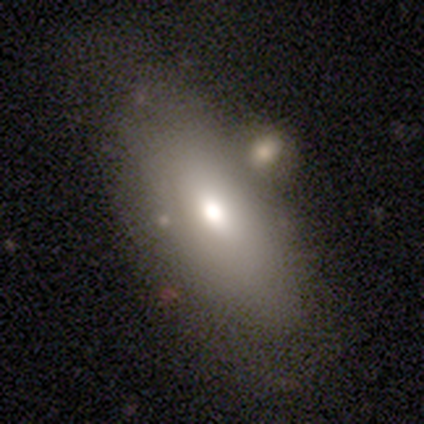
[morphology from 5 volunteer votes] Q: Smooth or featured?
A: smooth (60%); runner-up: featured or disk (40%)
Q: How rounded?
A: in between (100%)
Q: Merging?
A: minor disturbance (40%); runner-up: none (20%)